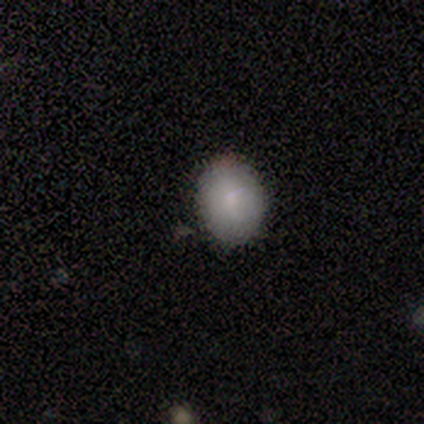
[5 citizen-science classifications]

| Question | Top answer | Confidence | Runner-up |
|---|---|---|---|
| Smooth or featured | smooth | 100% | — |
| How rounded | in between | 80% | round (20%) |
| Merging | none | 100% | — |